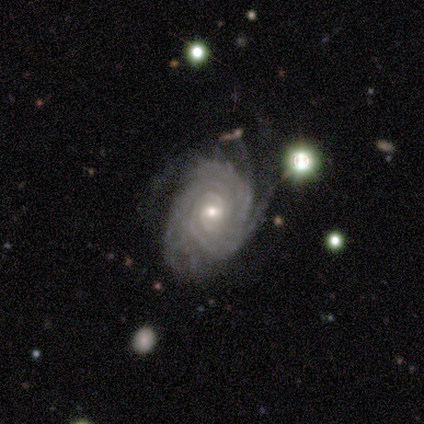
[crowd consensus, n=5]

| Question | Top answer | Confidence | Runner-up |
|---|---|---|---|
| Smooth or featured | featured or disk | 100% | — |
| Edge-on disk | no | 100% | — |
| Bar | weak | 40% | tied: no (40%) |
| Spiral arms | yes | 100% | — |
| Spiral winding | tight | 100% | — |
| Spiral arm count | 3 | 40% | tied: more than 4 (40%) |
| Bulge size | moderate | 60% | small (40%) |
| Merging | none | 60% | minor disturbance (40%) |